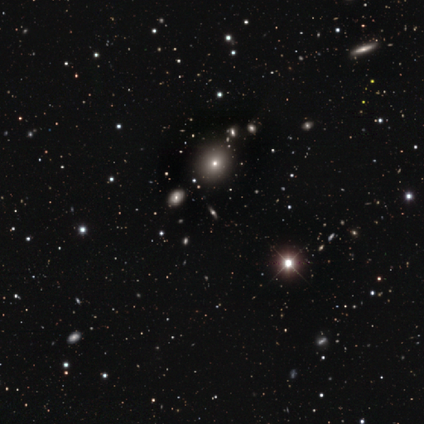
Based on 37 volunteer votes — Smooth or featured? star or artifact (41%)